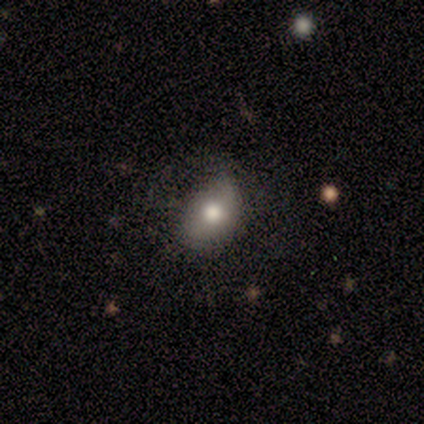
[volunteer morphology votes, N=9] Overall: smooth (100%). How rounded: in between (89%). Merging: minor disturbance (56%; none 33%).